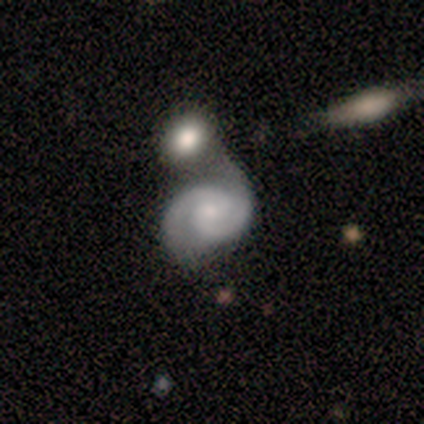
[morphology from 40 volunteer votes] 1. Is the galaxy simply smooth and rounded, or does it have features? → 88% featured or disk, 8% smooth, 5% star or artifact.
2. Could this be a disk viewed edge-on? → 97% no, 3% yes.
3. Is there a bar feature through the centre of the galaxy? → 76% no, 24% weak, 0% strong.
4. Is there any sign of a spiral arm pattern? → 97% yes, 3% no.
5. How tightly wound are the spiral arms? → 64% medium, 30% tight, 6% loose.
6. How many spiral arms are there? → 97% 2, 3% can't tell, 0% 1, 0% 3, 0% 4, 0% more than 4.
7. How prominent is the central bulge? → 47% small, 38% moderate, 12% none, 3% large, 0% dominant.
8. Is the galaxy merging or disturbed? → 39% merger, 29% none, 24% minor disturbance, 8% major disturbance.